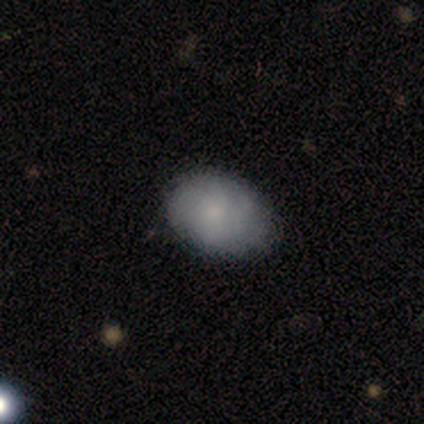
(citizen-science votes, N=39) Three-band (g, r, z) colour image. It shows a smooth galaxy with no disk features (56%) that is in between round and cigar-shaped (77%). Merging: none (78%).